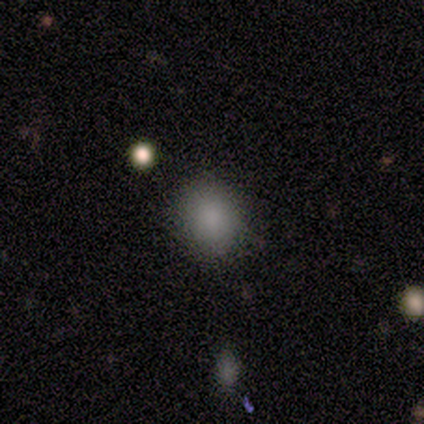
Overall: smooth (60%; star or artifact 40%). How rounded: round (67%; in between 33%). Merging: none (67%; minor disturbance 33%).